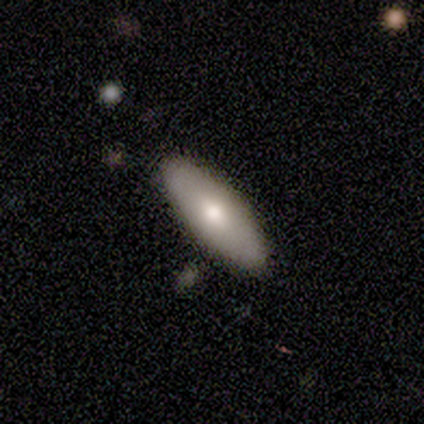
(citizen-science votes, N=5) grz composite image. It shows a smooth galaxy with no disk features (60%) that is in between round and cigar-shaped (100%). Merging: none (60%).